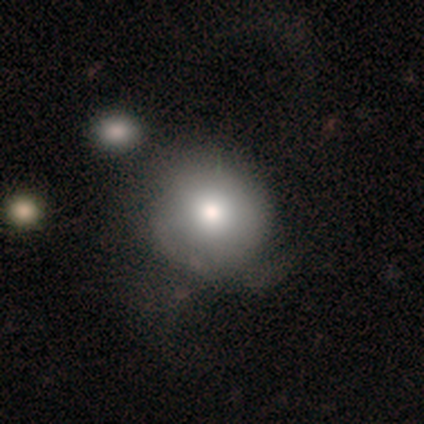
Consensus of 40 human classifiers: Q: Smooth or featured?
A: smooth (78%); runner-up: featured or disk (20%)
Q: How rounded?
A: round (84%); runner-up: in between (16%)
Q: Merging?
A: none (26%); runner-up: minor disturbance (23%)